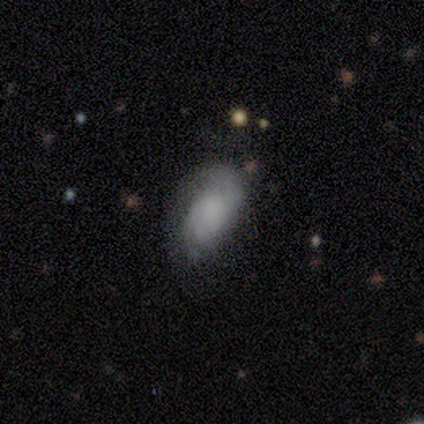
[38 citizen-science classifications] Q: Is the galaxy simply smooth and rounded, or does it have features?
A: smooth — 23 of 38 (61%).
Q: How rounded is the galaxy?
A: in between — 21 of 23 (91%).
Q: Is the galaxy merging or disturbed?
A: none — 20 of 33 (61%).